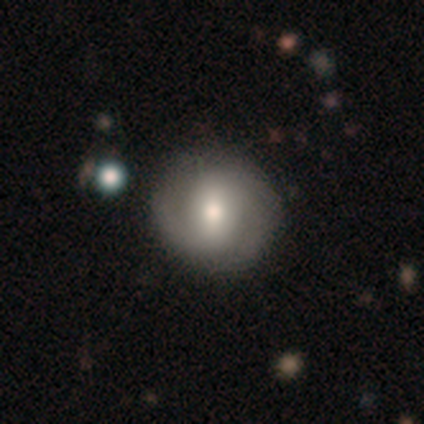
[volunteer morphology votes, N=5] Smooth or featured? 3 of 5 (60%) said smooth. How rounded? 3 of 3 (100%) said round. Merging? 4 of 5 (80%) said none.